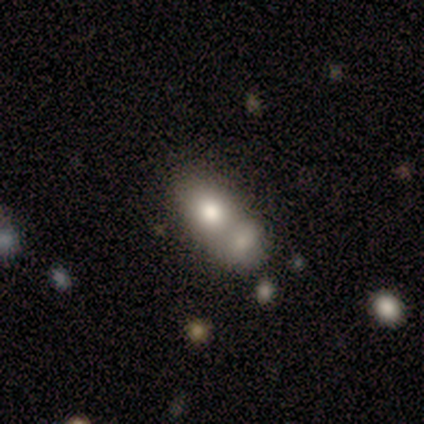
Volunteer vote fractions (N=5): smooth-or-featured: smooth: 40% (tied) | featured or disk: 40% (tied) | star or artifact: 20%
  how-rounded: round: 50% (tied) | in between: 50% (tied) | cigar-shaped: 0%
  merging: none: 50% (tied) | merger: 50% (tied) | minor disturbance: 0% | major disturbance: 0%